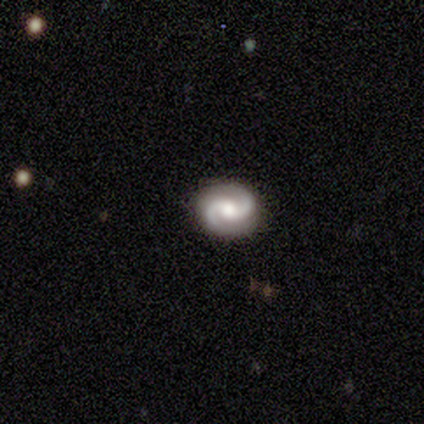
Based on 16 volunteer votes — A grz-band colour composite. It shows a featured or disk galaxy (94%) with no bar (60%), 2 (93%) tight (47%) spiral arms (100%) and a moderate central bulge (60%). Merging: none (87%).